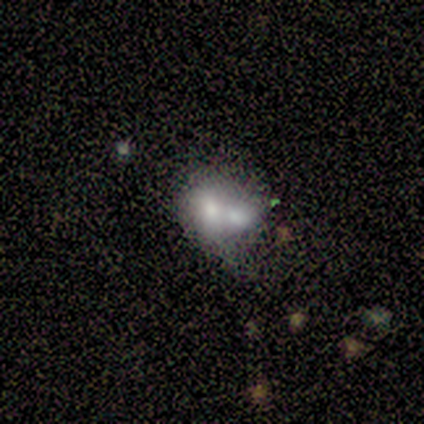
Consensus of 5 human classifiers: Smooth or featured? 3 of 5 (60%) said featured or disk. Edge-on disk? 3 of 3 (100%) said no. Bar? 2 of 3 (67%) said no. Spiral arms? 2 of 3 (67%) said no. Bulge size? 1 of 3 (33%, tied with moderate and none) said large. Merging? 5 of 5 (100%) said merger.